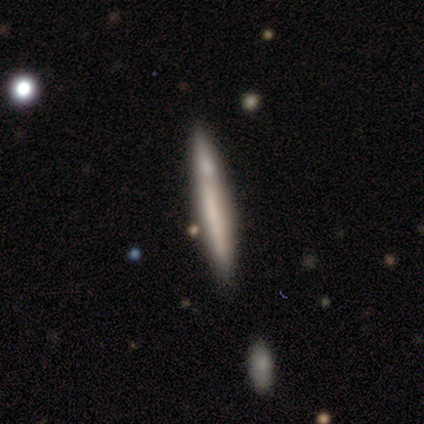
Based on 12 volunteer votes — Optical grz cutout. It shows a smooth galaxy with no disk features (50%, tied with featured or disk) that is cigar-shaped (100%). Merging: none (75%).